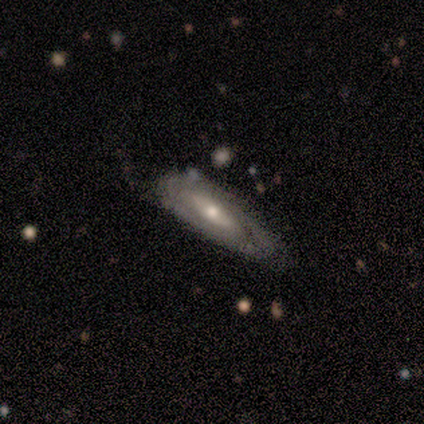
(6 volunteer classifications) Overall: featured or disk (50%; smooth 33%). Edge-on disk: no (100%). Bar: weak (67%; no 33%). Spiral arms: no (67%; yes 33%). Bulge size: moderate (100%). Merging: none (60%; minor disturbance 20%).